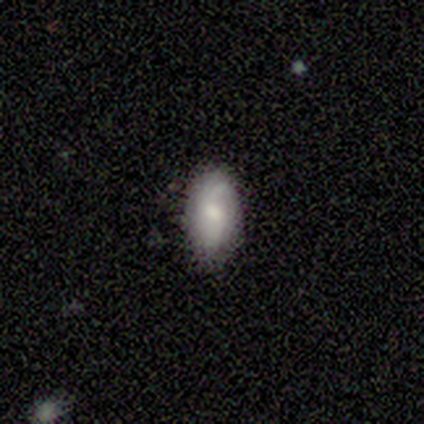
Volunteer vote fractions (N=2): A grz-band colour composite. It shows a featured or disk galaxy (100%) with a weak bar (100%), 1 (50%, tied with can't tell) loose (100%) spiral arms (100%) and a moderate central bulge (50%, tied with none). Merging: none (50%, tied with minor disturbance).